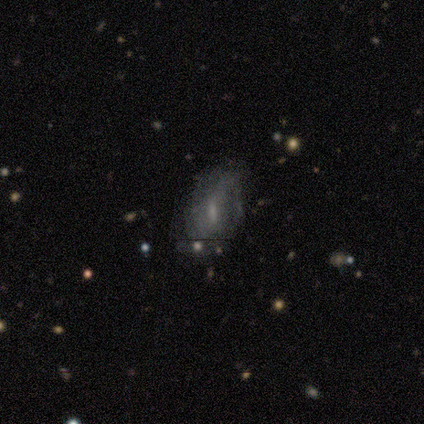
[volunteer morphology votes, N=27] Volunteers were most divided on "smooth or featured": smooth: 52%, featured or disk: 37%, star or artifact: 11%. More confident: how rounded — in between (93%); merging — none (50%).